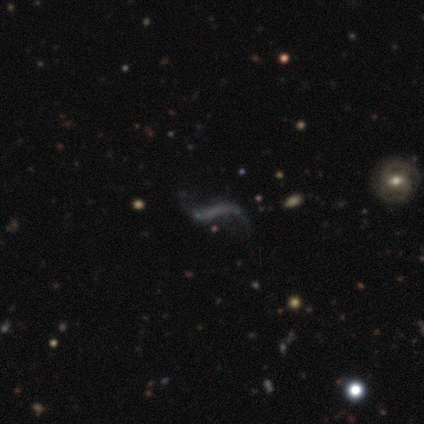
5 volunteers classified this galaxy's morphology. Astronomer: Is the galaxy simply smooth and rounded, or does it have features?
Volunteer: featured or disk — 80%.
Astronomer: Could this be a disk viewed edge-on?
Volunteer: no — 100%.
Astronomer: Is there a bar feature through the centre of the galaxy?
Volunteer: strong — 50%, tied with no at 50%.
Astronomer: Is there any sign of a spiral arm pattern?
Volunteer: yes — 50%, tied with no at 50%.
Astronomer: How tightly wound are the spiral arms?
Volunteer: loose — 100%.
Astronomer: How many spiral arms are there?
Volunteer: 2 — 100%.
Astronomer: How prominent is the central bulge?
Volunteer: none — 75%.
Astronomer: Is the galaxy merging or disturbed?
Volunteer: none — 60%.